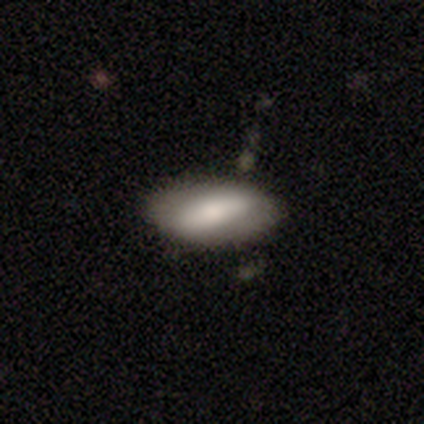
Smooth or featured?
  - featured or disk: 60% *
  - smooth: 40%
  - star or artifact: 0%
Edge-on disk?
  - no: 100% *
  - yes: 0%
Bar?
  - strong: 100% *
  - weak: 0%
  - no: 0%
Spiral arms?
  - no: 67% *
  - yes: 33%
Bulge size?
  - moderate: 67% *
  - small: 33%
  - dominant: 0%
  - large: 0%
  - none: 0%
Merging?
  - none: 80% *
  - minor disturbance: 20%
  - major disturbance: 0%
  - merger: 0%